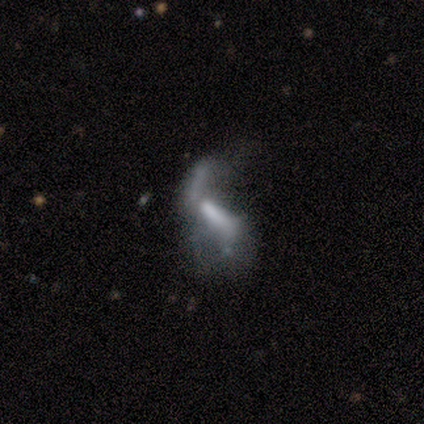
Smooth or featured?
  - featured or disk: 80% *
  - star or artifact: 20%
  - smooth: 0%
Edge-on disk?
  - no: 100% *
  - yes: 0%
Bar?
  - strong: 50% *
  - weak: 25%
  - no: 25%
Spiral arms?
  - yes: 50% * (tied)
  - no: 50% * (tied)
Spiral winding?
  - loose: 100% *
  - tight: 0%
  - medium: 0%
Spiral arm count?
  - 1: 50% * (tied)
  - 2: 50% * (tied)
  - 3: 0%
  - 4: 0%
  - more than 4: 0%
  - can't tell: 0%
Bulge size?
  - none: 50% *
  - large: 25%
  - moderate: 25%
  - dominant: 0%
  - small: 0%
Merging?
  - major disturbance: 75% *
  - none: 25%
  - minor disturbance: 0%
  - merger: 0%